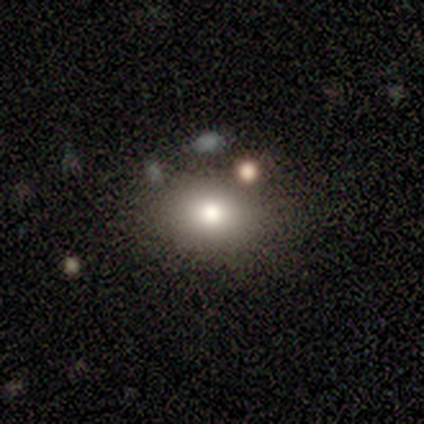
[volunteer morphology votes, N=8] smooth 75%, featured or disk 12%, star or artifact 12%. Down the decision tree: how rounded — round (50%, tied with in between); merging — none (71%).